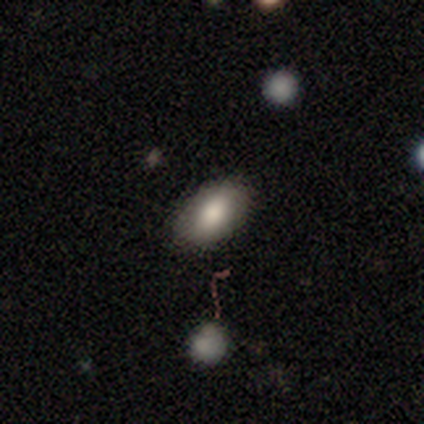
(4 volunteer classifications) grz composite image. It shows a smooth galaxy with no disk features (75%) that is in between round and cigar-shaped (67%). Merging: none (50%).